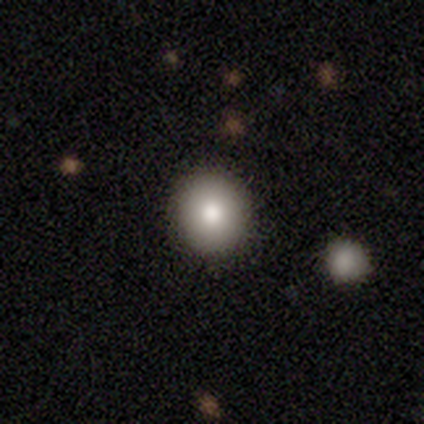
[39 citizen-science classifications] This appears to be a smooth galaxy with no disk features (69%) that is round (85%). Merging: none (94%).